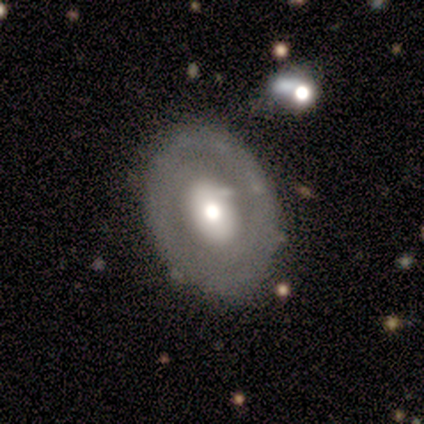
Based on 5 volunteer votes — Smooth or featured?
  - featured or disk: 60% *
  - smooth: 40%
  - star or artifact: 0%
Edge-on disk?
  - no: 100% *
  - yes: 0%
Bar?
  - no: 67% *
  - weak: 33%
  - strong: 0%
Spiral arms?
  - yes: 67% *
  - no: 33%
Spiral winding?
  - tight: 50% * (tied)
  - medium: 50% * (tied)
  - loose: 0%
Spiral arm count?
  - 2: 50% * (tied)
  - can't tell: 50% * (tied)
  - 1: 0%
  - 3: 0%
  - 4: 0%
  - more than 4: 0%
Bulge size?
  - moderate: 67% *
  - large: 33%
  - dominant: 0%
  - small: 0%
  - none: 0%
Merging?
  - none: 100% *
  - minor disturbance: 0%
  - major disturbance: 0%
  - merger: 0%